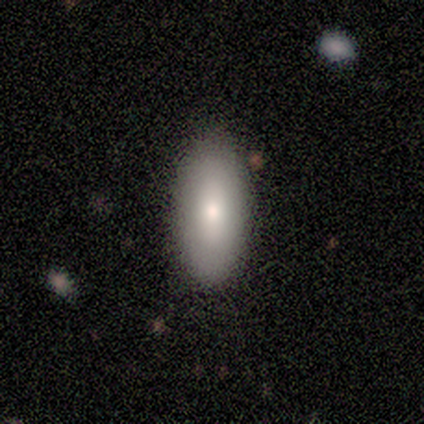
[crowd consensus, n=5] Volunteers were most divided on "how rounded": in between: 75%, cigar-shaped: 25%, round: 0%. More confident: smooth or featured — smooth (80%); merging — none (80%).